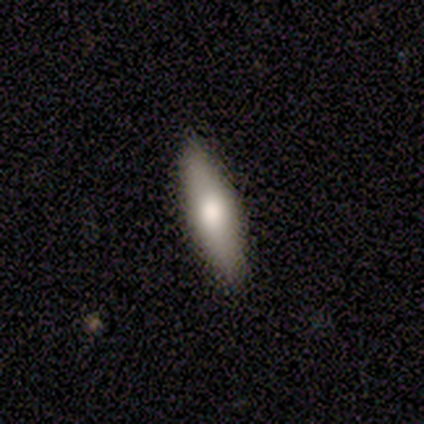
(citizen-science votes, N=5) Overall: smooth (40%, tied with featured or disk). How rounded: cigar-shaped (100%). Merging: none (50%, tied with minor disturbance).